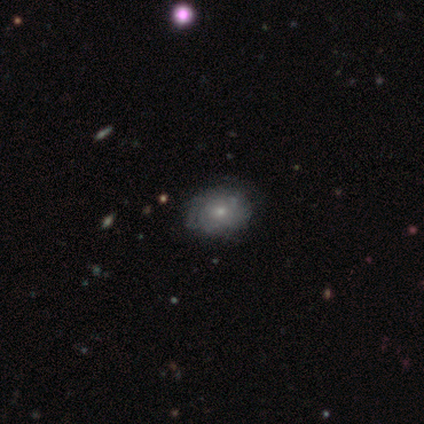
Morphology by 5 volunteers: A featured or disk galaxy (60%) with no bar (67%), tight (100%) spiral arms (100%) and a small central bulge (67%). Merging: none (100%).